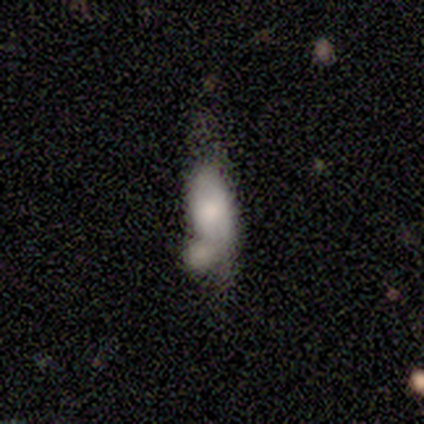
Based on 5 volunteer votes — smooth 60%, featured or disk 40%, star or artifact 0%. Down the decision tree: how rounded — cigar-shaped (67%); merging — none (60%).